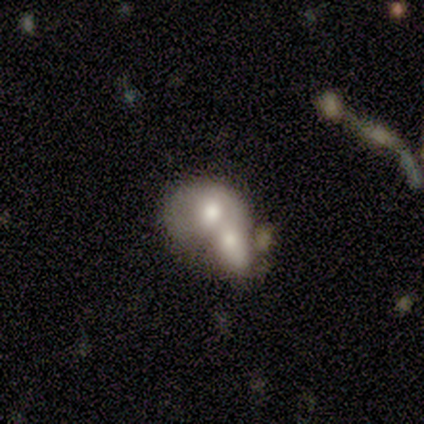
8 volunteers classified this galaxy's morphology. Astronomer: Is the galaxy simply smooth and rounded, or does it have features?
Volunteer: smooth — 50% (runner-up: featured or disk, 38%).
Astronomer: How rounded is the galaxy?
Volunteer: in between — 100%.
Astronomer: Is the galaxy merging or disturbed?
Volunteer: merger — 86%.